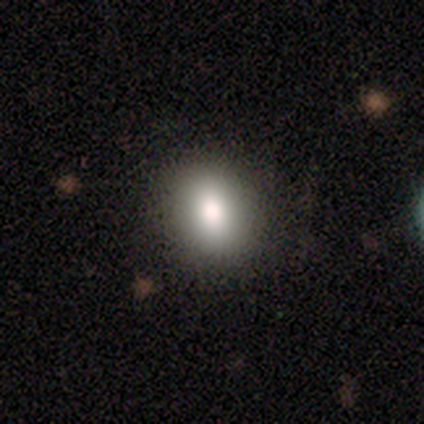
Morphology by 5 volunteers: Overall: smooth (100%). How rounded: round (100%). Merging: none (100%).